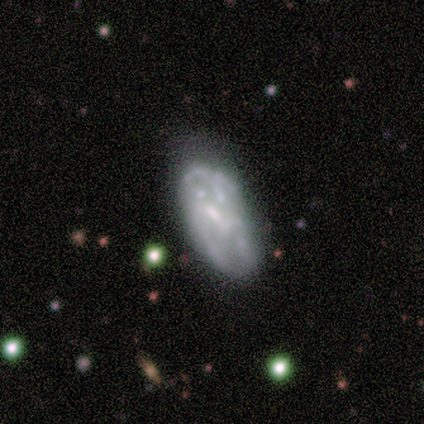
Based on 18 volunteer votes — Smooth or featured? 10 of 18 (56%) said featured or disk. Edge-on disk? 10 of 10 (100%) said no. Bar? 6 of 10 (60%) said no. Spiral arms? 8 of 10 (80%) said no. Bulge size? 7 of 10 (70%) said none. Merging? 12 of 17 (71%) said none.